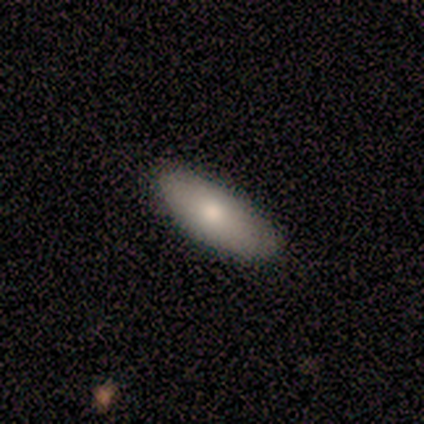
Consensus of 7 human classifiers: Volunteers were most divided on "merging": none: 83%, minor disturbance: 17%, major disturbance: 0%, merger: 0%. More confident: how rounded — in between (100%); smooth or featured — smooth (86%).